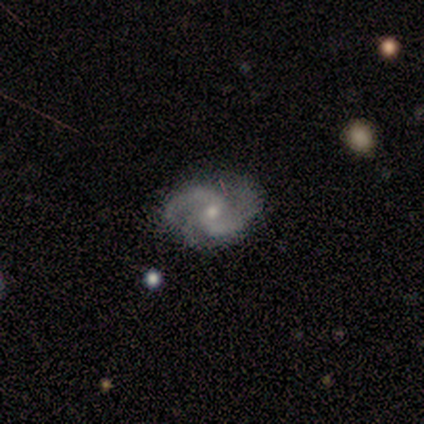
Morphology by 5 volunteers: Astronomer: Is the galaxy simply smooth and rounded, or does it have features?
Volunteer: featured or disk — 100%.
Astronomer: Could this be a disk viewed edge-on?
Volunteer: no — 100%.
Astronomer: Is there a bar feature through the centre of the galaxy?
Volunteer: no — 100%.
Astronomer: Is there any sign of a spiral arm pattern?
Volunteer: yes — 100%.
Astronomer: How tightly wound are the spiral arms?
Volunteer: medium — 60% (runner-up: tight, 40%).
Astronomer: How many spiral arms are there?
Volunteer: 2 — 60% (runner-up: 3, 40%).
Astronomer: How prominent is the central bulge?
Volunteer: small — 60% (runner-up: moderate, 40%).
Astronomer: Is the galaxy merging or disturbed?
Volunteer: none — 100%.